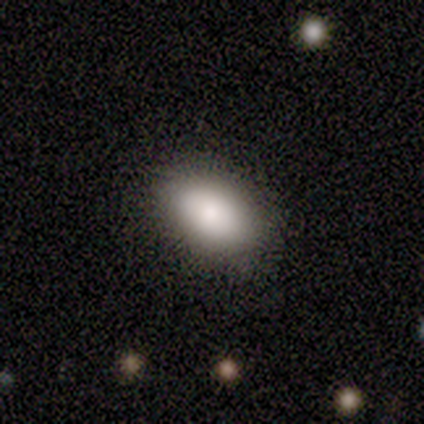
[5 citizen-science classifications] A smooth galaxy with no disk features (100%) that is in between round and cigar-shaped (100%). Merging: none (100%).